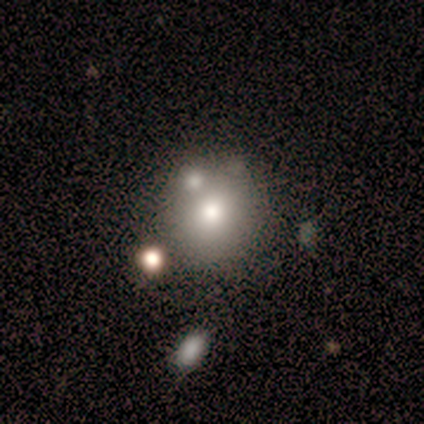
Volunteers were most divided on "merging": merger: 50%, none: 25%, minor disturbance: 25%, major disturbance: 0%. More confident: how rounded — round (100%); smooth or featured — smooth (80%).